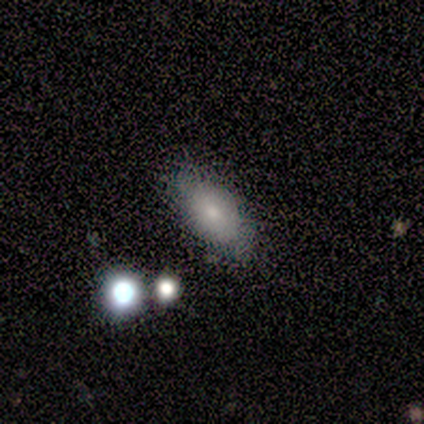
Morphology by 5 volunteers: A smooth galaxy with no disk features (100%) that is in between round and cigar-shaped (80%).

Vote fractions:
- Smooth or featured? smooth: 100% / featured or disk: 0% / star or artifact: 0%
- How rounded? in between: 80% / cigar-shaped: 20% / round: 0%
- Merging? none: 100% / minor disturbance: 0% / major disturbance: 0% / merger: 0%